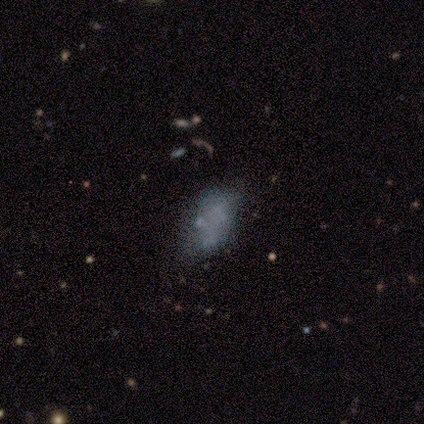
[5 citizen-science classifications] Morphology: type=featured or disk (60%); edge-on=no (67%); bar=no (100%); spiral arms=no (100%); bulge=none (100%); merging=none (40%, tied with major disturbance).